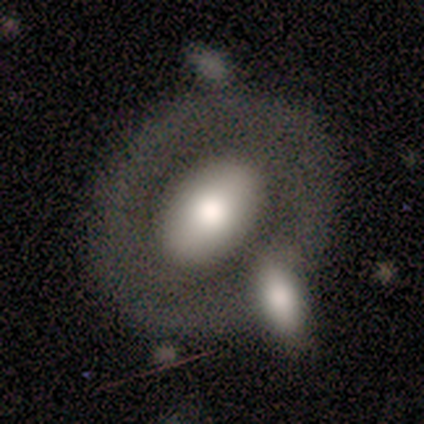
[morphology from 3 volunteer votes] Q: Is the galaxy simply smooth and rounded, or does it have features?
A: smooth — 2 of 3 (67%).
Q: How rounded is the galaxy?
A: in between — 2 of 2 (100%).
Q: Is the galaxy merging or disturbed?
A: none — 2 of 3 (67%).